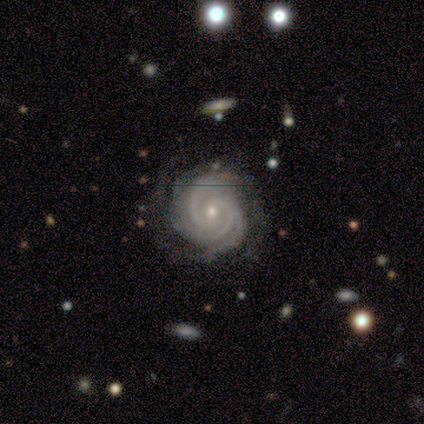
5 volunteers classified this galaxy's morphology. Smooth or featured?
  - featured or disk: 80% *
  - smooth: 20%
  - star or artifact: 0%
Edge-on disk?
  - no: 100% *
  - yes: 0%
Bar?
  - no: 75% *
  - weak: 25%
  - strong: 0%
Spiral arms?
  - yes: 100% *
  - no: 0%
Spiral winding?
  - tight: 50% * (tied)
  - medium: 50% * (tied)
  - loose: 0%
Spiral arm count?
  - 3: 50% * (tied)
  - 4: 50% * (tied)
  - 1: 0%
  - 2: 0%
  - more than 4: 0%
  - can't tell: 0%
Bulge size?
  - small: 100% *
  - dominant: 0%
  - large: 0%
  - moderate: 0%
  - none: 0%
Merging?
  - none: 100% *
  - minor disturbance: 0%
  - major disturbance: 0%
  - merger: 0%